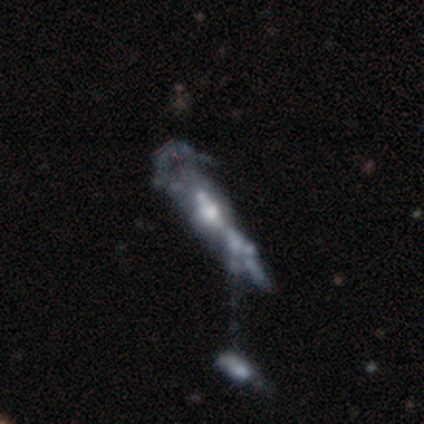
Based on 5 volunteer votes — Smooth or featured? 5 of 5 (100%) said featured or disk. Edge-on disk? 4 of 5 (80%) said no. Bar? 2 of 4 (50%) said no. Spiral arms? 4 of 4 (100%) said no. Bulge size? 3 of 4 (75%) said moderate. Merging? 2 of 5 (40%, tied with merger) said major disturbance.